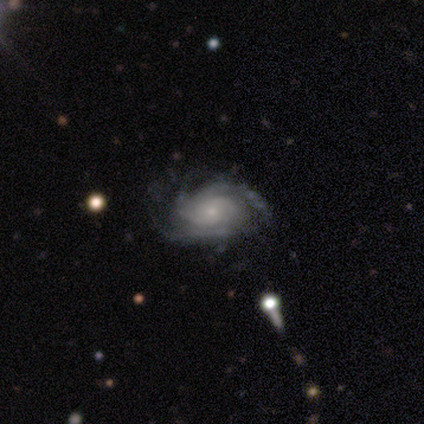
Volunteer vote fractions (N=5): Volunteers were most divided on "spiral winding" (2-way tie): tight: 50%, medium: 50%, loose: 0%. More confident: edge-on disk — no (100%); bar — no (100%); spiral arms — yes (100%); merging — none (100%); smooth or featured — featured or disk (80%); spiral arm count — 3 (75%); bulge size — small (75%).